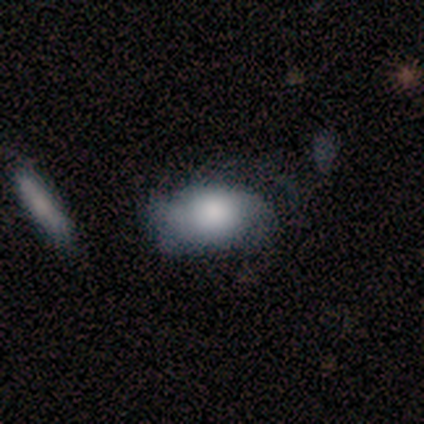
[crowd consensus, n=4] Smooth or featured? 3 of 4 (75%) said smooth. How rounded? 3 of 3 (100%) said in between. Merging? 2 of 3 (67%) said none.